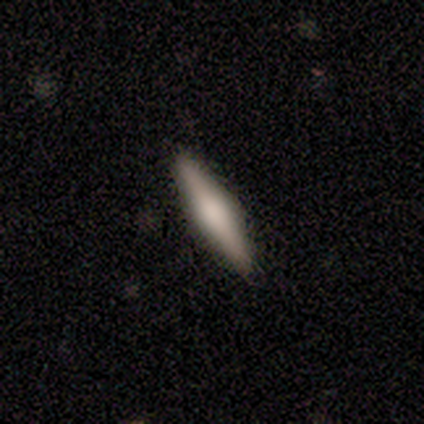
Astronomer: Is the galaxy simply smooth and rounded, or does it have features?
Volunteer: smooth — 50%, tied with featured or disk at 50%.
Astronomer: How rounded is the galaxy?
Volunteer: cigar-shaped — 100%.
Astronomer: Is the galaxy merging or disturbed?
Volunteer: none — 83%.